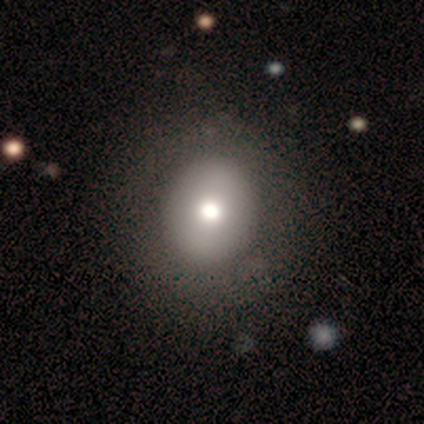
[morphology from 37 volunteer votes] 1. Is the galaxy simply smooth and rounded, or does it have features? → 68% smooth, 27% featured or disk, 5% star or artifact.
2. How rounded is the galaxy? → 84% round, 16% in between, 0% cigar-shaped.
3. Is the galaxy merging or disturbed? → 71% none, 6% minor disturbance, 3% merger, 0% major disturbance.